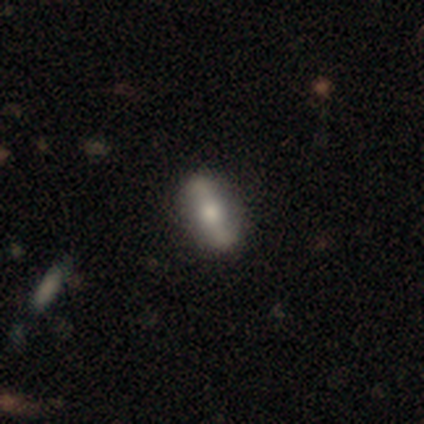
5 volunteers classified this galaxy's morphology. A featured or disk galaxy (80%) viewed edge-on (50%, tied with no) with a rounded central bulge (100%). Merging: none (100%).